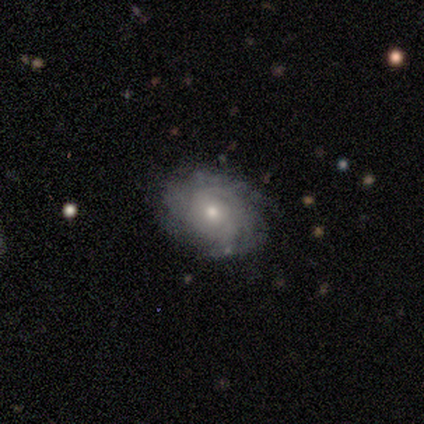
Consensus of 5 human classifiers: smooth_or_featured: featured or disk (p=1.00)
disk_edge_on: no (p=1.00)
bar: no (p=1.00)
has_spiral_arms: yes (p=0.80) [alt: no p=0.20]
spiral_winding: medium (p=0.75) [alt: tight p=0.25]
spiral_arm_count: can't tell (p=0.75) [alt: 1 p=0.25]
bulge_size: moderate (p=0.80) [alt: small p=0.20]
merging: none (p=0.80) [alt: minor disturbance p=0.20]